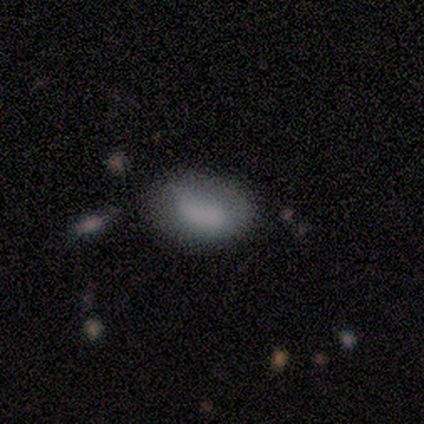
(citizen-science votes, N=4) Morphology: type=smooth (50%, tied with featured or disk); roundness=in between (100%); merging=none (50%).